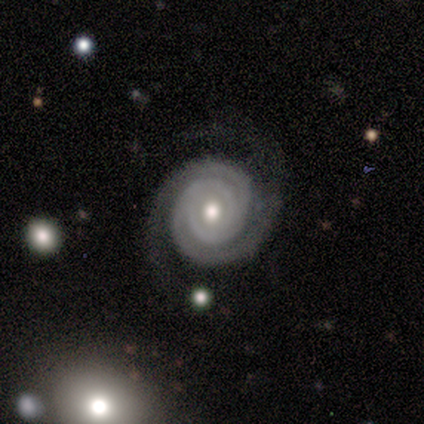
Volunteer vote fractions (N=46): This appears to be a featured or disk galaxy (96%) with no bar (95%), 2 (80%) tight (85%) spiral arms (95%) and a moderate central bulge (72%). Merging: none (80%).